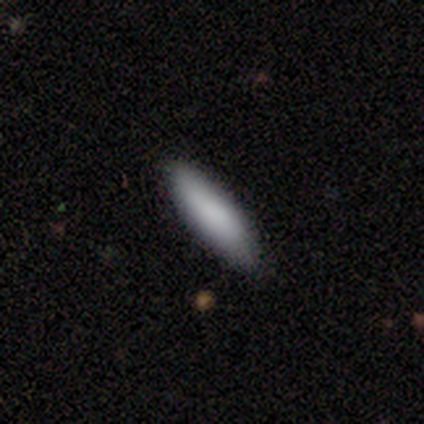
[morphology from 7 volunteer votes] This is likely a smooth galaxy (71%). How rounded: clearly cigar-shaped (100%). Merging: clearly none (83%).